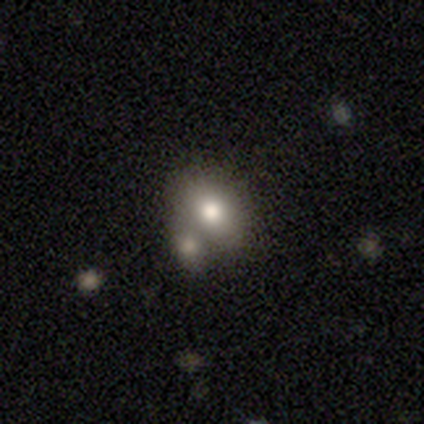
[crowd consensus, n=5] Overall: smooth (100%). How rounded: round (60%; in between 40%). Merging: merger (80%).